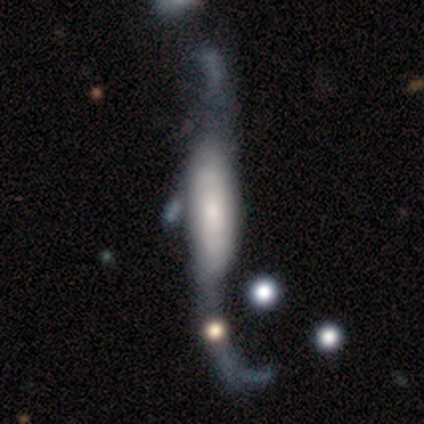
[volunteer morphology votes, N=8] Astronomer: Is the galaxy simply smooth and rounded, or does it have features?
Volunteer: featured or disk — 88%.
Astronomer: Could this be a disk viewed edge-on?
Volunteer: no — 86%.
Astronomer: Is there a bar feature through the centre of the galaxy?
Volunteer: strong — 50%, tied with no at 50%.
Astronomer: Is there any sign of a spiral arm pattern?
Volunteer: yes — 83%.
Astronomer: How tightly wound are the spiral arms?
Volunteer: loose — 80%.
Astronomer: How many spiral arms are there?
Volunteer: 2 — 100%.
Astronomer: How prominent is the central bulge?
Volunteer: small — 33% (runner-up: dominant, 17%).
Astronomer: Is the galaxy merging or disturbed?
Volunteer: none — 38%, tied with major disturbance at 38%.